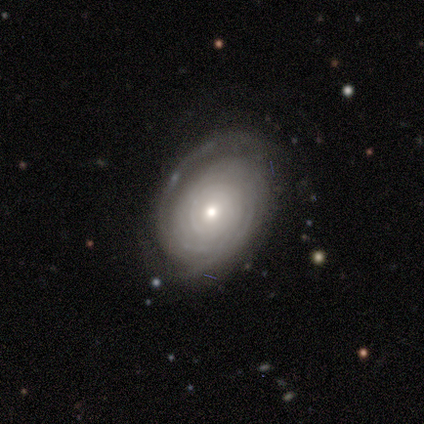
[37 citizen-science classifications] A featured or disk galaxy (76%) with no bar (75%), tight (77%) spiral arms (92%) and a moderate central bulge (46%, tied with small).

Vote fractions:
- Smooth or featured? featured or disk: 76% / smooth: 24% / star or artifact: 0%
- Edge-on disk? no: 86% / yes: 14%
- Bar? no: 75% / weak: 17% / strong: 8%
- Spiral arms? yes: 92% / no: 8%
- Spiral winding? tight: 77% / medium: 14% / loose: 9%
- Spiral arm count? can't tell: 59% / 3: 18% / more than 4: 14% / 2: 9% / 1: 0% / 4: 0%
- Bulge size? moderate: 46% (tied) / small: 46% (tied) / dominant: 4% / large: 4% / none: 0%
- Merging? none: 54% / minor disturbance: 30% / major disturbance: 16% / merger: 0%